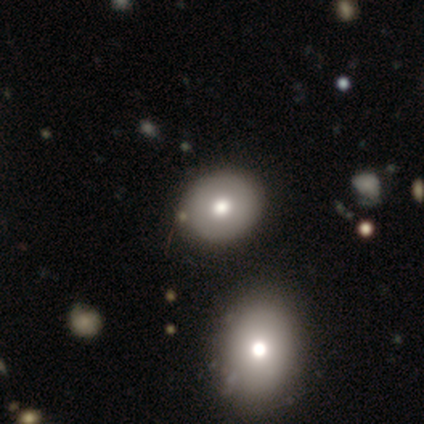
Smooth or featured? 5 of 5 (100%) said smooth. How rounded? 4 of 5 (80%) said in between. Merging? 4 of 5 (80%) said none.